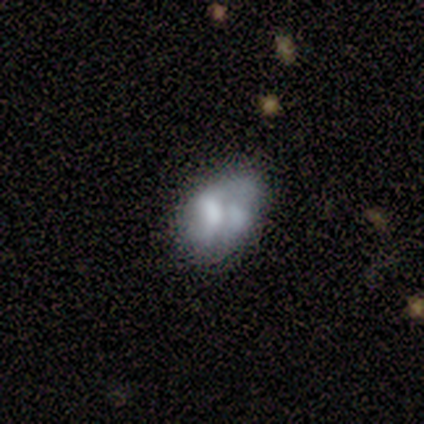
A smooth galaxy with no disk features (60%) that is in between round and cigar-shaped (100%). Merging: none (40%, tied with minor disturbance).